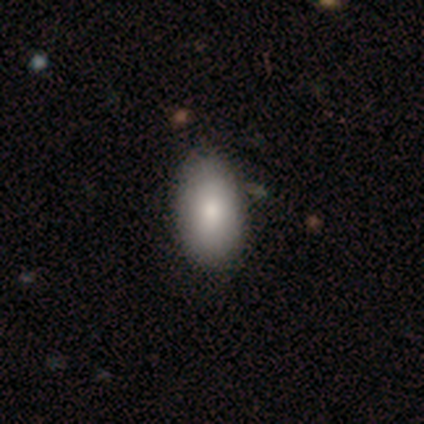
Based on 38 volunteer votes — Q: Smooth or featured?
A: smooth (84%); runner-up: featured or disk (13%)
Q: How rounded?
A: in between (97%); runner-up: round (3%)
Q: Merging?
A: none (59%); runner-up: minor disturbance (14%)